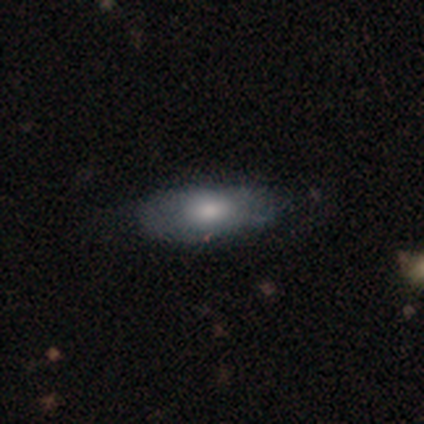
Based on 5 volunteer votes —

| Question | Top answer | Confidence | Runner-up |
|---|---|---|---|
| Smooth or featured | smooth | 60% | featured or disk (40%) |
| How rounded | cigar-shaped | 67% | in between (33%) |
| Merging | none | 60% | minor disturbance (40%) |